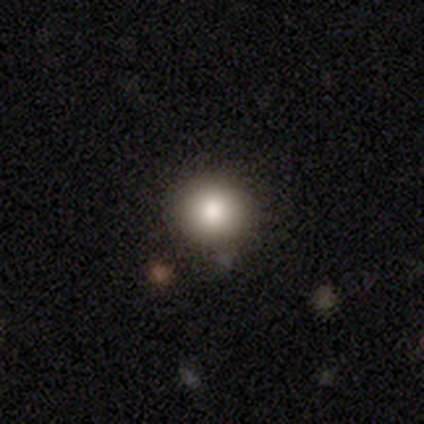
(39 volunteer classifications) Smooth or featured? smooth (82%)
How rounded? round (97%)
Merging? none (89%)